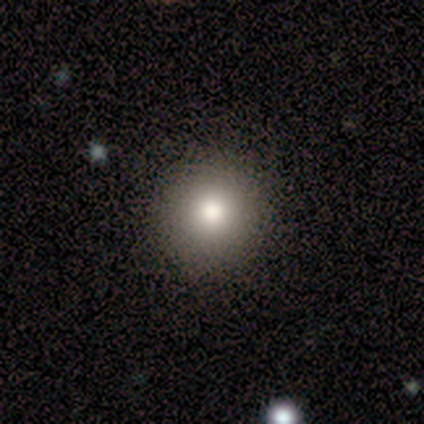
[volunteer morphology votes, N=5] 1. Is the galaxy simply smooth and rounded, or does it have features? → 80% smooth, 20% featured or disk, 0% star or artifact.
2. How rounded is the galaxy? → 100% round, 0% in between, 0% cigar-shaped.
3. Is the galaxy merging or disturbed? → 100% none, 0% minor disturbance, 0% major disturbance, 0% merger.